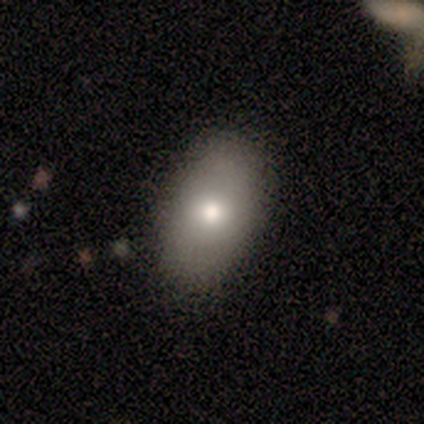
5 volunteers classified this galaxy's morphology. Smooth or featured?
  - smooth: 80% *
  - featured or disk: 20%
  - star or artifact: 0%
How rounded?
  - in between: 100% *
  - round: 0%
  - cigar-shaped: 0%
Merging?
  - none: 80% *
  - minor disturbance: 20%
  - major disturbance: 0%
  - merger: 0%